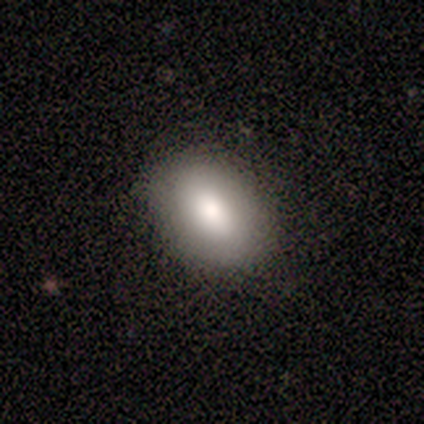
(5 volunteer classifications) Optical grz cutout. It shows a smooth galaxy with no disk features (100%) that is in between round and cigar-shaped (80%). Merging: none (80%).